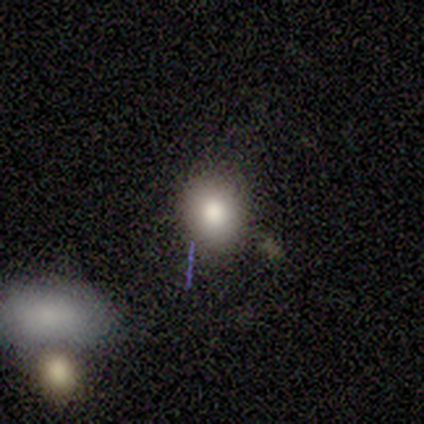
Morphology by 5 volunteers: A smooth galaxy with no disk features (80%) that is round (100%).

Vote fractions:
- Smooth or featured? smooth: 80% / star or artifact: 20% / featured or disk: 0%
- How rounded? round: 100% / in between: 0% / cigar-shaped: 0%
- Merging? none: 75% / merger: 25% / minor disturbance: 0% / major disturbance: 0%